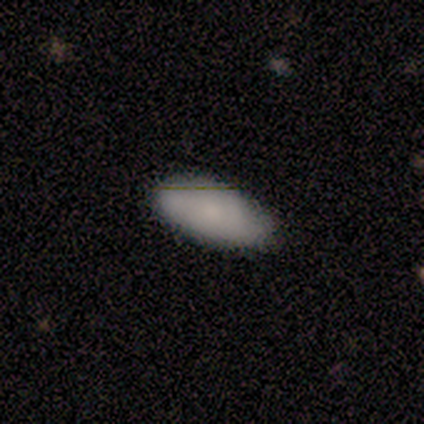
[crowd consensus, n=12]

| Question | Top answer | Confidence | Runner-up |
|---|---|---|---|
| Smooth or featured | smooth | 75% | featured or disk (17%) |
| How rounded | in between | 100% | — |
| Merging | none | 91% | minor disturbance (9%) |